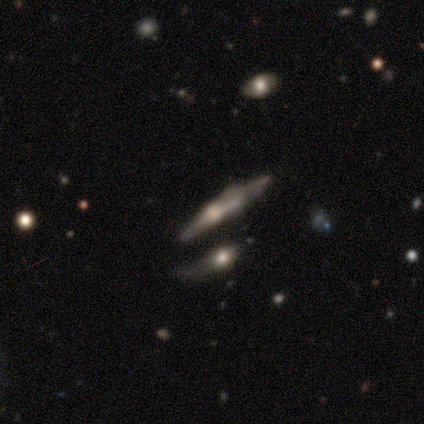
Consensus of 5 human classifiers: This is clearly a featured or disk galaxy (80%). It is clearly viewed edge-on (100%). Edge-on bulge: possibly none (50%). Merging: clearly none (80%).